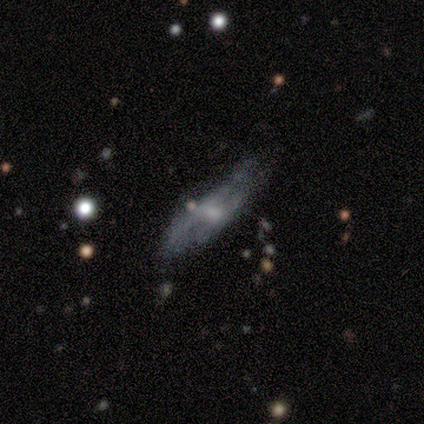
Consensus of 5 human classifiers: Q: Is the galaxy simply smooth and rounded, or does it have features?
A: smooth — 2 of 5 (40%, tied with featured or disk).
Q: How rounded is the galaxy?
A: in between — 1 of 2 (50%, tied with cigar-shaped).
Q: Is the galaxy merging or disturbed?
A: none — 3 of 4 (75%).